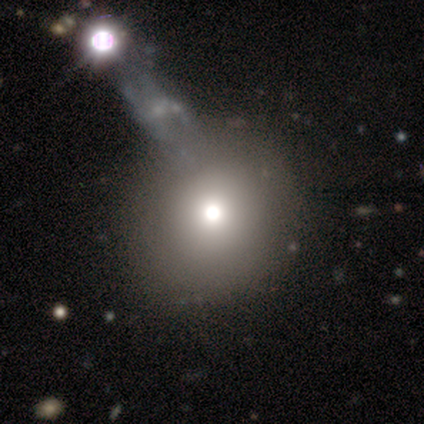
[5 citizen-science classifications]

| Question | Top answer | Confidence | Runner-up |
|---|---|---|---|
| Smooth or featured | smooth | 60% | featured or disk (20%) |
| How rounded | round | 100% | — |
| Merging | none | 50% | minor disturbance (25%) |